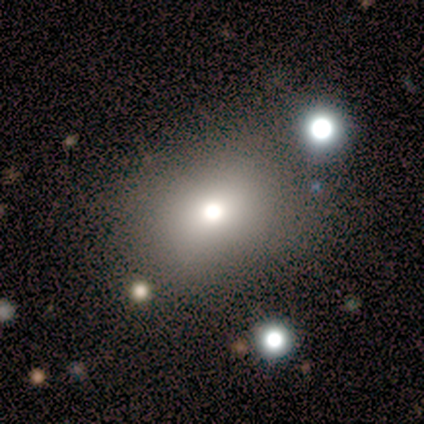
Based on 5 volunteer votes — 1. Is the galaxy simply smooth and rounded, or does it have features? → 60% smooth, 40% star or artifact, 0% featured or disk.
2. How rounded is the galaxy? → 67% round, 33% in between, 0% cigar-shaped.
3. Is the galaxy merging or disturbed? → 67% minor disturbance, 33% none, 0% major disturbance, 0% merger.